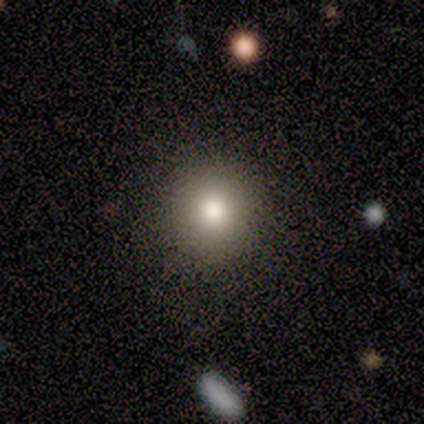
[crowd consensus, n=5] Q: Smooth or featured?
A: smooth (100%)
Q: How rounded?
A: round (100%)
Q: Merging?
A: none (100%)